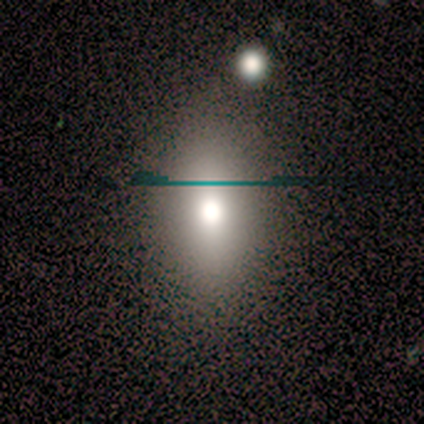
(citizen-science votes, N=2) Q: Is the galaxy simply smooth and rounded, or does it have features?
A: smooth — 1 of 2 (50%, tied with featured or disk).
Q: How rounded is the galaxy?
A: in between — 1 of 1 (100%).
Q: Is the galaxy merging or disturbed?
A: none — 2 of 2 (100%).